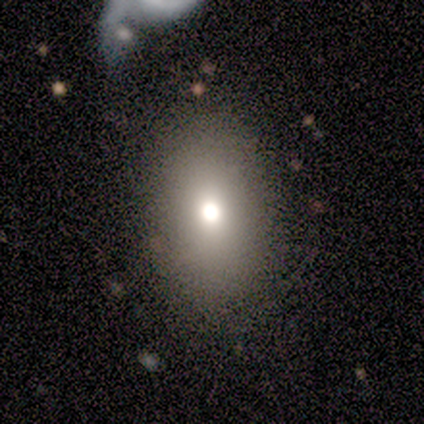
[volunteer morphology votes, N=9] A smooth galaxy with no disk features (56%) that is in between round and cigar-shaped (100%). Merging: none (71%).